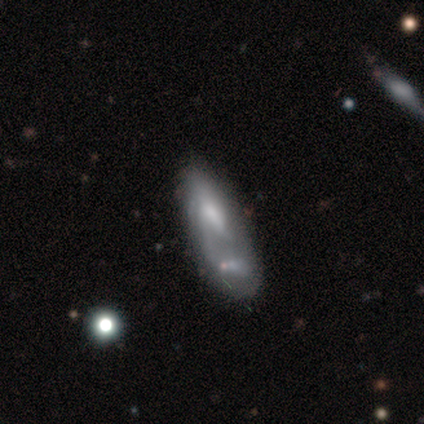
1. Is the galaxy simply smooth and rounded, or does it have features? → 75% featured or disk, 12% smooth, 12% star or artifact.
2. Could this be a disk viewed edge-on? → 100% no, 0% yes.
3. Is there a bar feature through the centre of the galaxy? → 67% no, 33% weak, 0% strong.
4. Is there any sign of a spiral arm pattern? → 50% yes (tied), 50% no (tied).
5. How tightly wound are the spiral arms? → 100% medium, 0% tight, 0% loose.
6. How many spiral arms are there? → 33% 1 (tied), 33% 3 (tied), 33% can't tell (tied), 0% 2, 0% 4, 0% more than 4.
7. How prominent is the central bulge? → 67% moderate, 33% large, 0% dominant, 0% small, 0% none.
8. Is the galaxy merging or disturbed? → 71% merger, 29% major disturbance, 0% none, 0% minor disturbance.